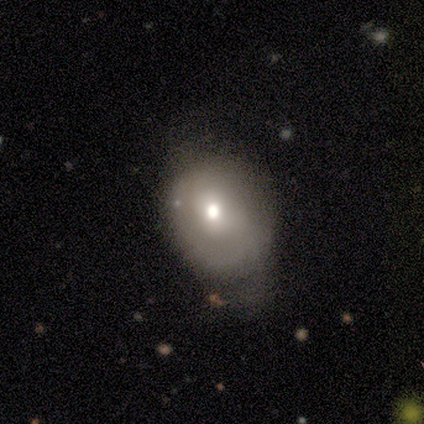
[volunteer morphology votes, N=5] type=smooth (60%); roundness=in between (67%); merging=minor disturbance (80%).